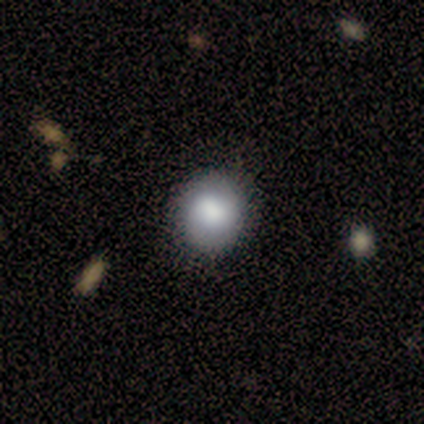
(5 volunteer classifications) Smooth or featured? 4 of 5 (80%) said smooth. How rounded? 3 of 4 (75%) said round. Merging? 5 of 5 (100%) said none.